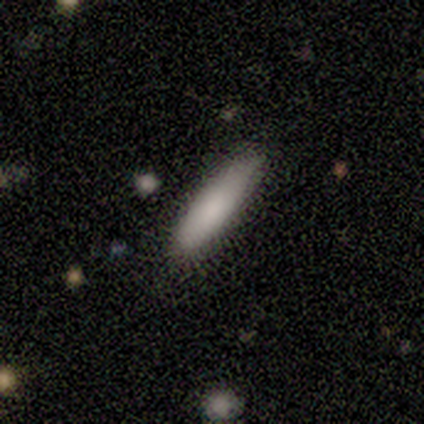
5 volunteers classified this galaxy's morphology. This is clearly a smooth galaxy (80%). How rounded: likely cigar-shaped (75%). Merging: marginally minor disturbance (40%, tied with major disturbance).